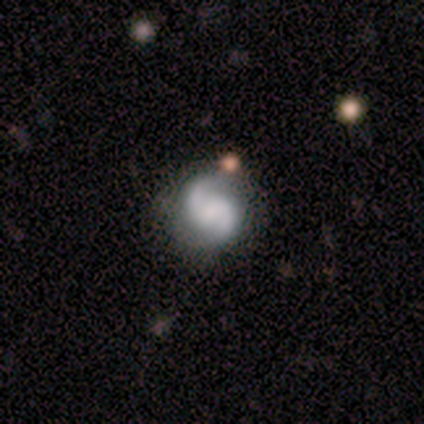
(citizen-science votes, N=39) featured or disk 87%, smooth 13%, star or artifact 0%. Down the decision tree: edge-on disk — no (100%); bar — weak (56%); spiral arms — yes (94%); spiral arm count — 2 (94%); spiral winding — medium (53%); bulge size — none (41%); merging — none (64%).